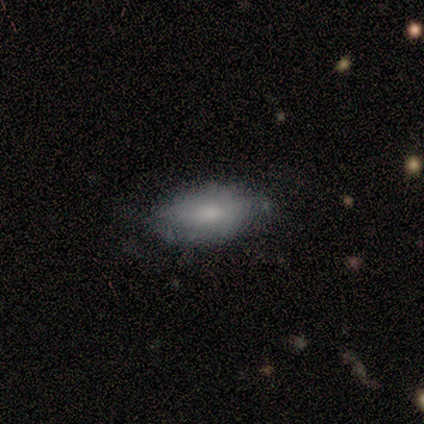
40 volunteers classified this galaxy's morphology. A smooth galaxy with no disk features (78%) that is in between round and cigar-shaped (97%). Merging: none (65%).